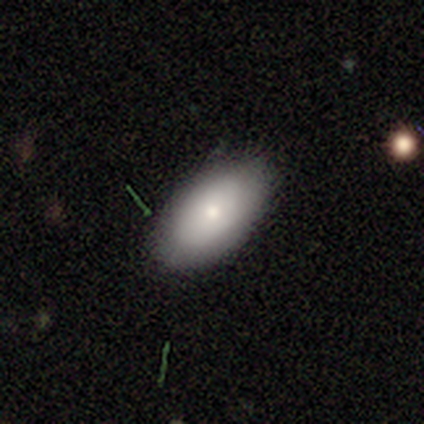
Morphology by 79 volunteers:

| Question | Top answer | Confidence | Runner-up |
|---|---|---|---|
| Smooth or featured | smooth | 80% | featured or disk (10%) |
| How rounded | in between | 94% | round (6%) |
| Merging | none | 44% | minor disturbance (7%) |